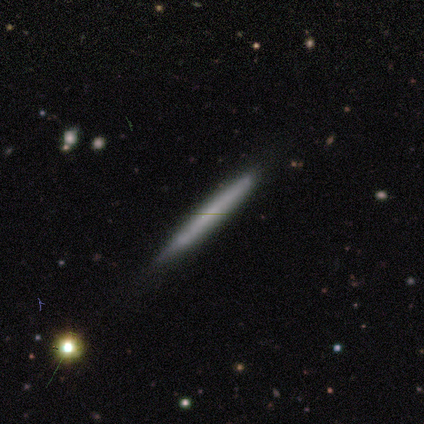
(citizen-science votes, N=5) Q: Smooth or featured?
A: smooth (60%); runner-up: featured or disk (40%)
Q: How rounded?
A: cigar-shaped (100%)
Q: Merging?
A: none (100%)